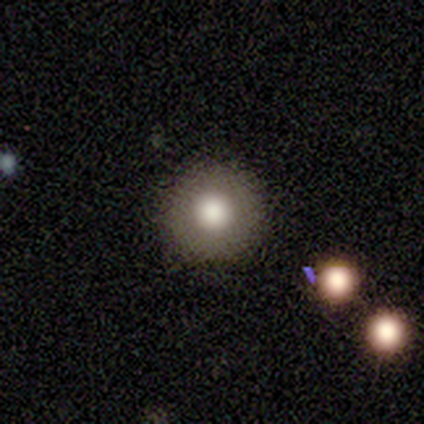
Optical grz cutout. It shows a smooth galaxy with no disk features (67%) that is round (100%). Merging: none (50%, tied with minor disturbance).